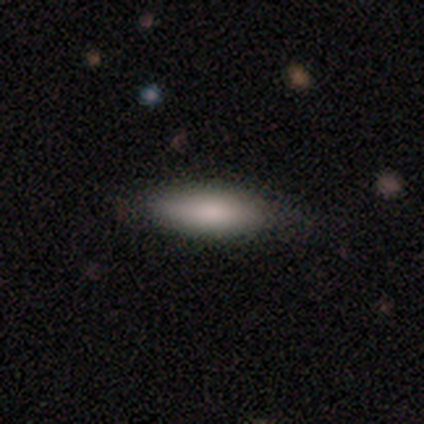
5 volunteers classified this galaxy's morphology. type=smooth (100%); roundness=in between (80%); merging=none (80%).